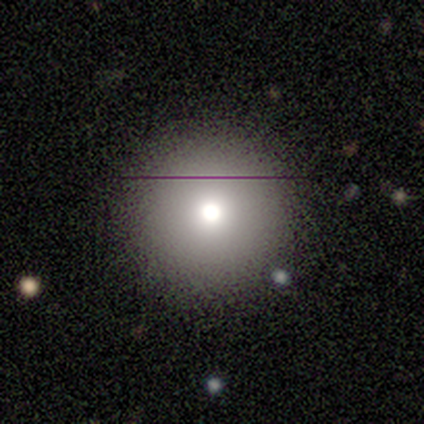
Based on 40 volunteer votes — Morphology: type=smooth (65%); roundness=round (100%); merging=none (88%).